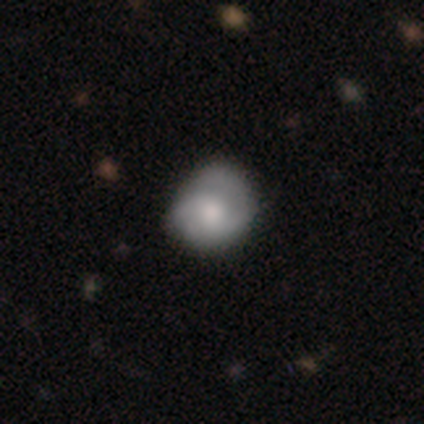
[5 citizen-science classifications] Morphology: type=featured or disk (60%); edge-on=no (100%); bar=no (67%); spiral arms=yes (100%); winding=tight (100%); arm count=2 (100%); bulge=moderate (67%); merging=none (80%).